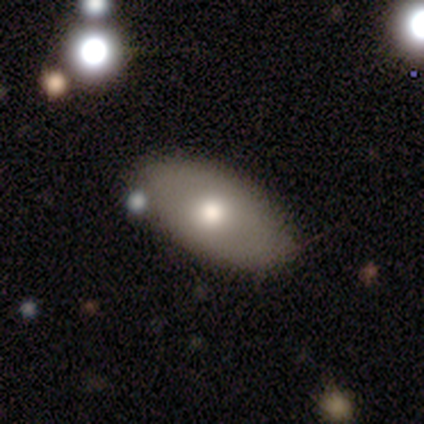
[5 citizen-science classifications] Q: Smooth or featured?
A: smooth (60%); runner-up: featured or disk (40%)
Q: How rounded?
A: in between (100%)
Q: Merging?
A: none (100%)